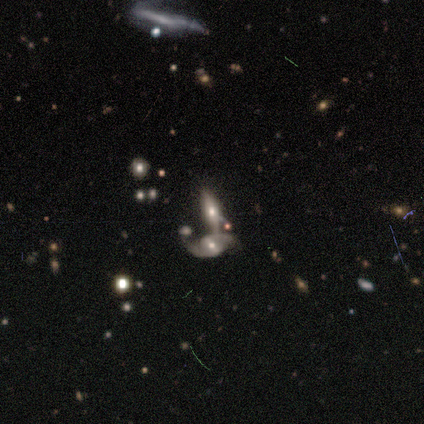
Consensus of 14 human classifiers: Morphology: type=featured or disk (64%); edge-on=no (78%); bar=weak (43%); spiral arms=yes (100%); winding=loose (71%); arm count=2 (86%); bulge=moderate (71%); merging=merger (64%).